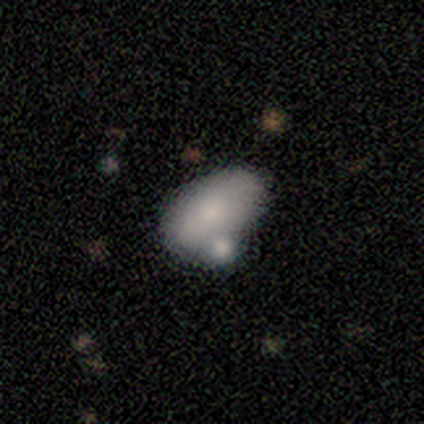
Q: Smooth or featured?
A: smooth (88%); runner-up: star or artifact (12%)
Q: How rounded?
A: in between (100%)
Q: Merging?
A: none (43%); tied with: minor disturbance (43%)